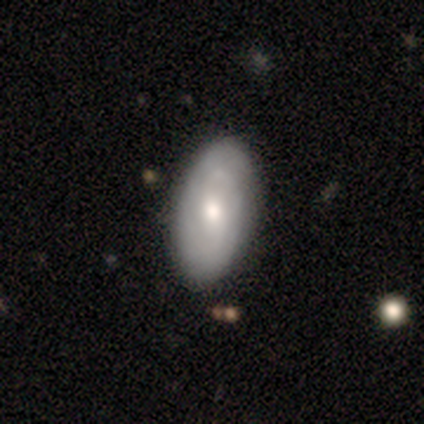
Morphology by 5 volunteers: A smooth galaxy with no disk features (60%) that is in between round and cigar-shaped (100%). Merging: none (60%).